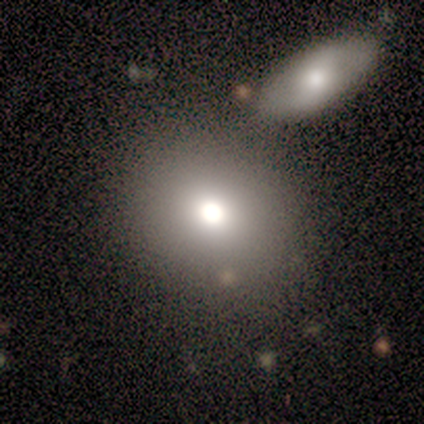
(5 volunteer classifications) This appears to be a smooth galaxy with no disk features (100%) that is round (60%). Merging: none (60%).